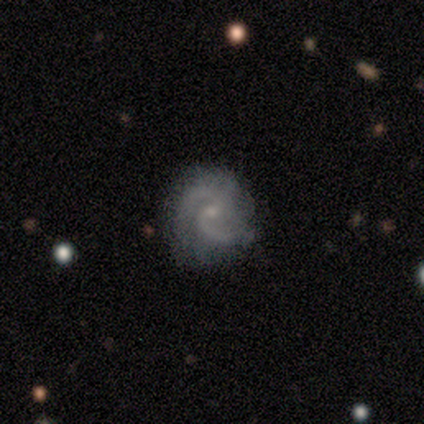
smooth_or_featured: featured or disk (p=1.00)
disk_edge_on: no (p=1.00)
bar: no (p=0.60) [alt: weak p=0.40]
has_spiral_arms: yes (p=1.00)
spiral_winding: medium (p=1.00)
spiral_arm_count: 2 (p=1.00)
bulge_size: small (p=0.60) [alt: moderate p=0.40]
merging: none (p=0.80) [alt: minor disturbance p=0.20]